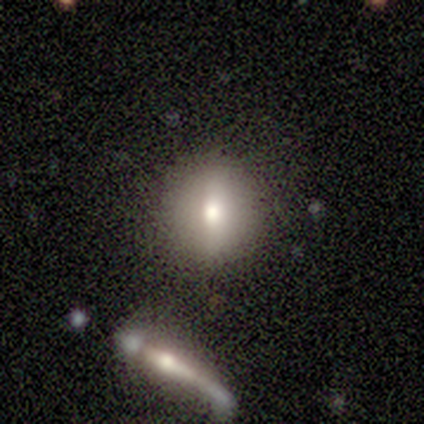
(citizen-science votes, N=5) Volunteers were most divided on "smooth or featured": smooth: 60%, featured or disk: 40%, star or artifact: 0%. More confident: how rounded — round (100%); merging — none (60%).